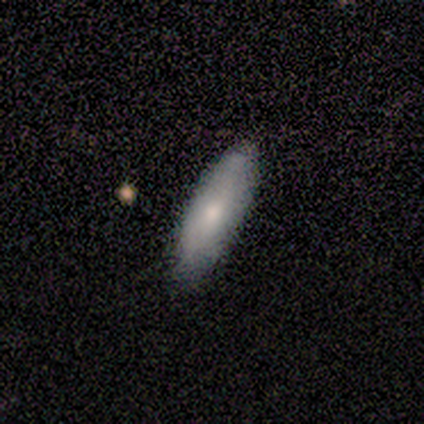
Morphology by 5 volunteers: Smooth or featured? 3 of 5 (60%) said smooth. How rounded? 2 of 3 (67%) said cigar-shaped. Merging? 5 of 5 (100%) said none.